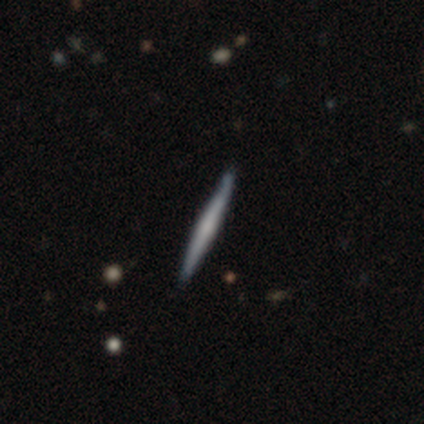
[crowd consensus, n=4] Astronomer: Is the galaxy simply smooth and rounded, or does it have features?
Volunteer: smooth — 50%, tied with featured or disk at 50%.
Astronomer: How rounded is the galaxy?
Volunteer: cigar-shaped — 100%.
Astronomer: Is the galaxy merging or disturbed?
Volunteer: none — 100%.